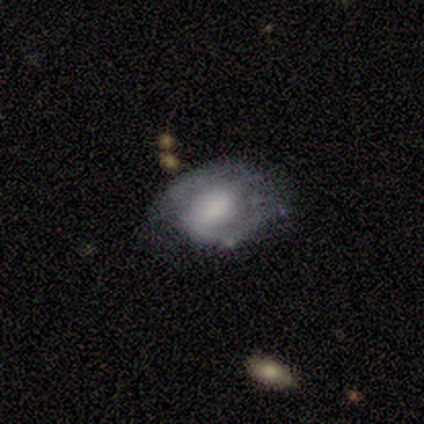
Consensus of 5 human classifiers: A featured or disk galaxy (60%) with no bar (67%), 2 (100%) medium (100%) spiral arms (67%) and a large central bulge (33%, tied with moderate and none).

Vote fractions:
- Smooth or featured? featured or disk: 60% / smooth: 40% / star or artifact: 0%
- Edge-on disk? no: 100% / yes: 0%
- Bar? no: 67% / weak: 33% / strong: 0%
- Spiral arms? yes: 67% / no: 33%
- Spiral winding? medium: 100% / tight: 0% / loose: 0%
- Spiral arm count? 2: 100% / 1: 0% / 3: 0% / 4: 0% / more than 4: 0% / can't tell: 0%
- Bulge size? large: 33% (tied) / moderate: 33% (tied) / none: 33% (tied) / dominant: 0% / small: 0%
- Merging? none: 40% (tied) / minor disturbance: 40% (tied) / major disturbance: 20% / merger: 0%